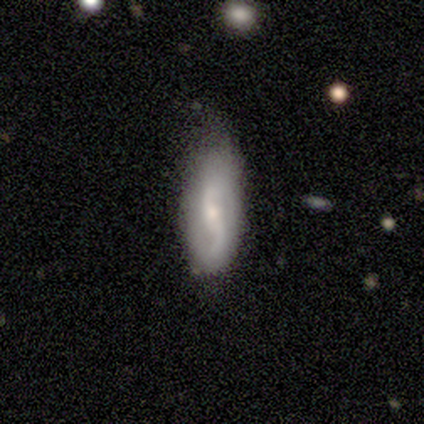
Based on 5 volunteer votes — Q: Smooth or featured?
A: featured or disk (80%); runner-up: star or artifact (20%)
Q: Edge-on disk?
A: no (100%)
Q: Bar?
A: weak (50%); tied with: no (50%)
Q: Spiral arms?
A: yes (75%); runner-up: no (25%)
Q: Spiral winding?
A: medium (100%)
Q: Spiral arm count?
A: 2 (100%)
Q: Bulge size?
A: small (75%); runner-up: moderate (25%)
Q: Merging?
A: none (50%); runner-up: minor disturbance (25%)